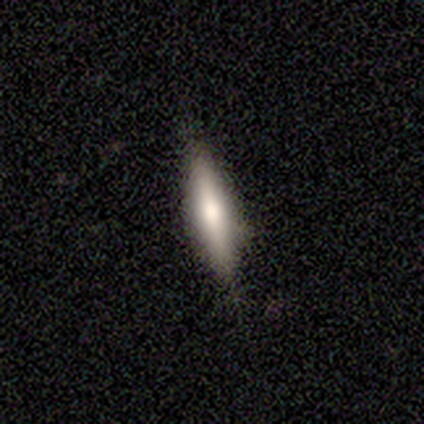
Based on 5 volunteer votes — Smooth or featured: smooth — 60% (featured or disk — 40%)
How rounded: in between — 67% (cigar-shaped — 33%)
Merging: none — 80% (minor disturbance — 20%)